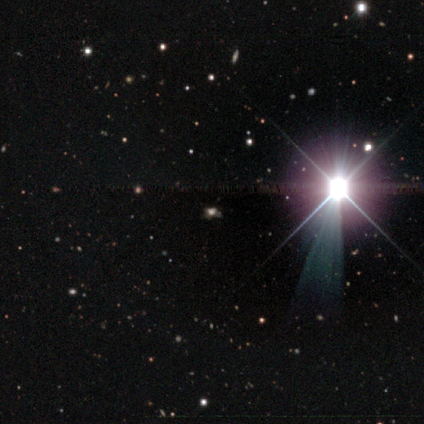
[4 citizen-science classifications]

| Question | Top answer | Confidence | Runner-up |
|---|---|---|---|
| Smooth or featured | star or artifact | 75% | smooth (25%) |